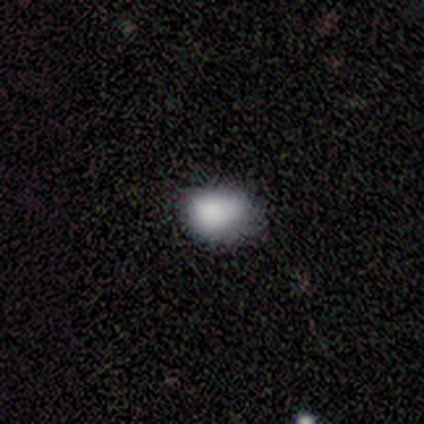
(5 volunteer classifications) Volunteers were most divided on "merging": none: 60%, minor disturbance: 40%, major disturbance: 0%, merger: 0%. More confident: smooth or featured — smooth (80%); how rounded — in between (75%).